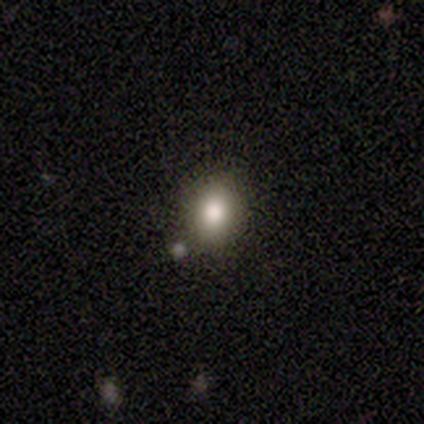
smooth-or-featured: smooth: 60% | featured or disk: 20% | star or artifact: 20%
  how-rounded: round: 67% | in between: 33% | cigar-shaped: 0%
  merging: none: 100% | minor disturbance: 0% | major disturbance: 0% | merger: 0%